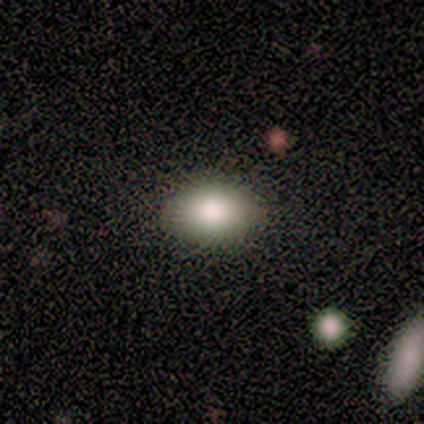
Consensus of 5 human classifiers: Q: Smooth or featured?
A: smooth (80%); runner-up: star or artifact (20%)
Q: How rounded?
A: in between (100%)
Q: Merging?
A: none (100%)